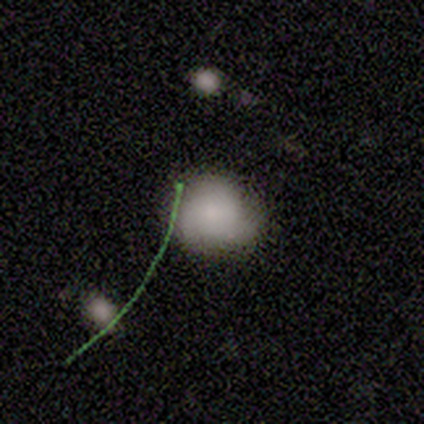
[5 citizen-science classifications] Smooth or featured?
  - smooth: 60% *
  - featured or disk: 20%
  - star or artifact: 20%
How rounded?
  - in between: 67% *
  - round: 33%
  - cigar-shaped: 0%
Merging?
  - minor disturbance: 75% *
  - none: 25%
  - major disturbance: 0%
  - merger: 0%